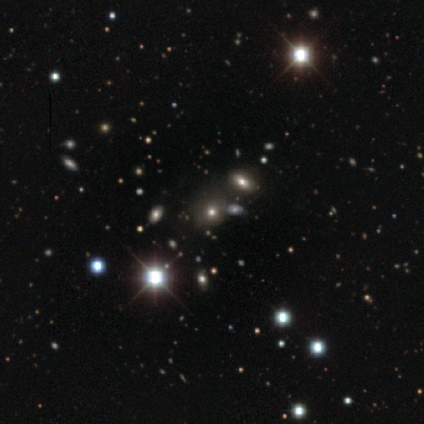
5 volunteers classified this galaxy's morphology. A star or artifact, not a galaxy (80%).

Vote fractions:
- Smooth or featured? star or artifact: 80% / smooth: 20% / featured or disk: 0%